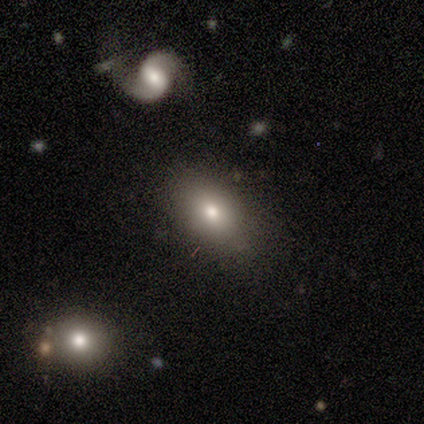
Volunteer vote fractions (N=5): A smooth galaxy with no disk features (80%) that is round (50%, tied with in between).

Vote fractions:
- Smooth or featured? smooth: 80% / featured or disk: 20% / star or artifact: 0%
- How rounded? round: 50% (tied) / in between: 50% (tied) / cigar-shaped: 0%
- Merging? none: 60% / minor disturbance: 20% / merger: 20% / major disturbance: 0%